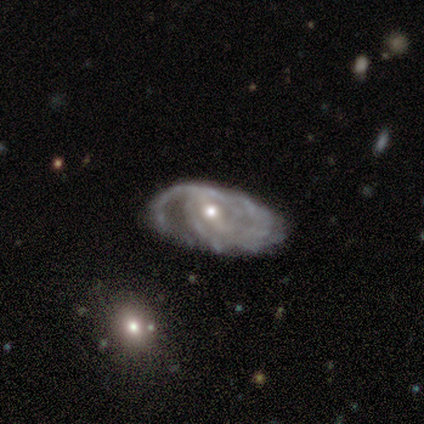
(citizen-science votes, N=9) A featured or disk galaxy (89%) with a weak bar (62%), tight (50%) spiral arms (100%) and a small central bulge (62%). Merging: none (56%).